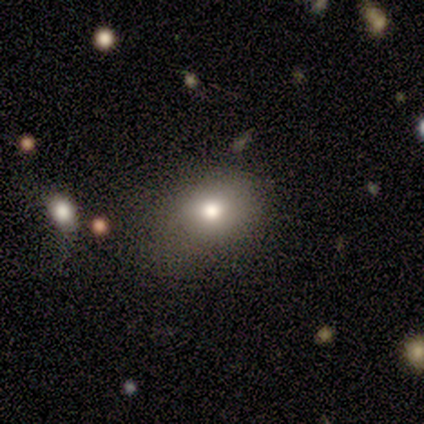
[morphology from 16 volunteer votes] Q: Smooth or featured?
A: smooth (75%); runner-up: star or artifact (19%)
Q: How rounded?
A: round (50%); tied with: in between (50%)
Q: Merging?
A: none (62%); runner-up: minor disturbance (38%)